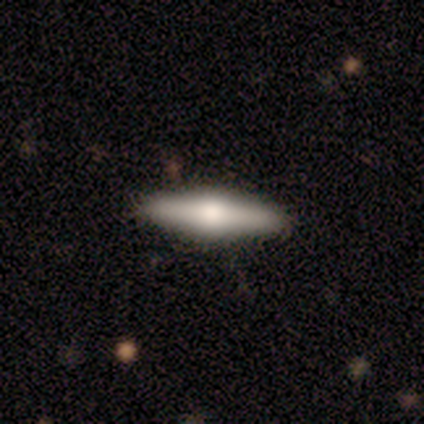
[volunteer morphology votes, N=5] type=featured or disk (80%); edge-on=yes (100%); edge-on bulge=rounded (100%); merging=none (100%).